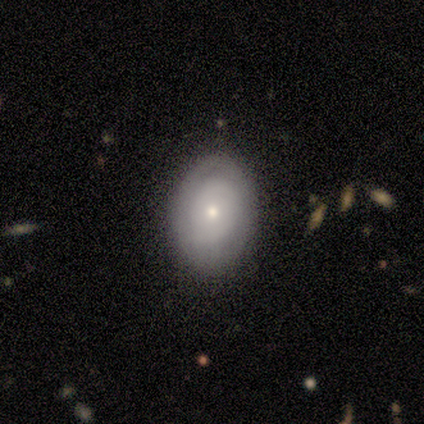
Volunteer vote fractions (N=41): Overall: smooth (54%; featured or disk 41%). How rounded: in between (82%). Merging: none (74%).